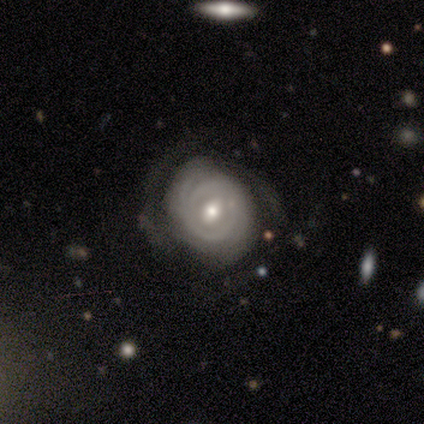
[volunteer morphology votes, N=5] featured or disk 100%, smooth 0%, star or artifact 0%. Down the decision tree: edge-on disk — no (100%); bar — weak (80%); spiral arms — yes (60%); spiral arm count — 2 (67%); spiral winding — tight (100%); bulge size — moderate (80%); merging — none (100%).